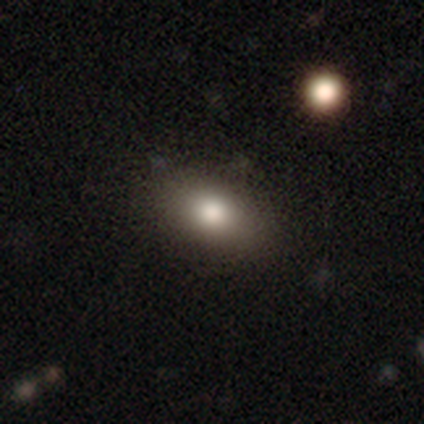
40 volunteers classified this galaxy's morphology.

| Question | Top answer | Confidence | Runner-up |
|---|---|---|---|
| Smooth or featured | smooth | 78% | featured or disk (12%) |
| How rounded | in between | 77% | round (19%) |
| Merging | none | 69% | minor disturbance (22%) |